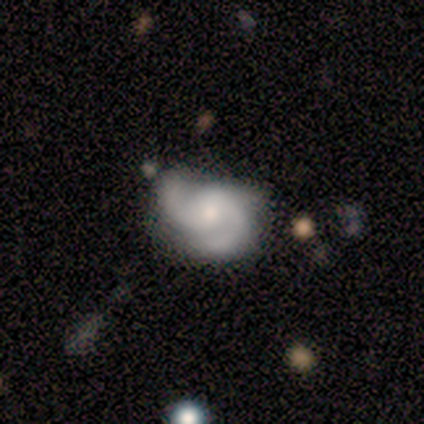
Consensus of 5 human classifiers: Smooth or featured? featured or disk (80%)
Edge-on disk? no (100%)
Bar? weak (50%, tied with no)
Spiral arms? yes (100%)
Spiral winding? medium (50%, tied with loose)
Spiral arm count? 2 (100%)
Bulge size? moderate (75%)
Merging? minor disturbance (40%, tied with major disturbance)